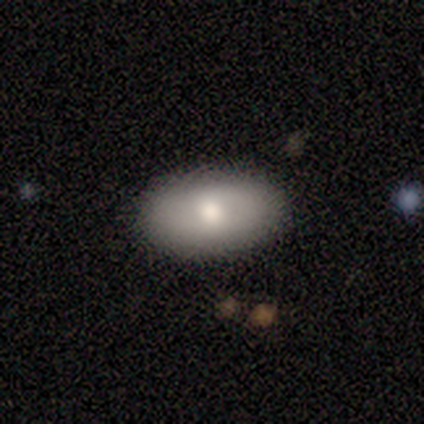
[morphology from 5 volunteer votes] Smooth or featured? 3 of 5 (60%) said smooth. How rounded? 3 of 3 (100%) said in between. Merging? 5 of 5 (100%) said none.